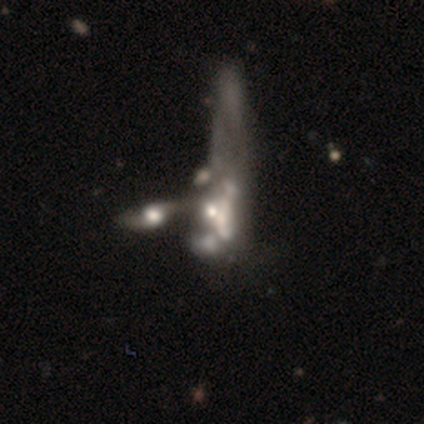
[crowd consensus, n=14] Smooth or featured? featured or disk (79%)
Edge-on disk? no (91%)
Bar? no (100%)
Spiral arms? no (60%)
Bulge size? moderate (50%, tied with small)
Merging? merger (86%)